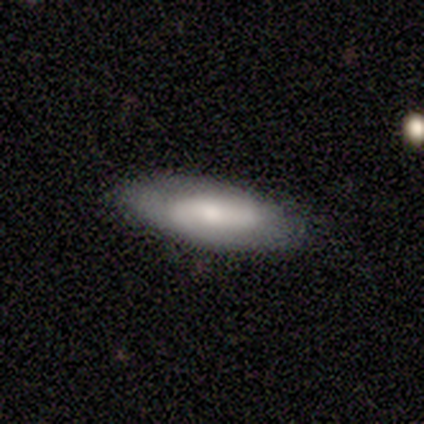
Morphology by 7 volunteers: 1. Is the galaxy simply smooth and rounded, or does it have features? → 71% featured or disk, 29% smooth, 0% star or artifact.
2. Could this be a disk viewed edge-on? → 60% no, 40% yes.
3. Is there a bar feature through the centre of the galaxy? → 67% no, 33% weak, 0% strong.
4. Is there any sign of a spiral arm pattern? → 67% yes, 33% no.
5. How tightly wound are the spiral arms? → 50% medium (tied), 50% loose (tied), 0% tight.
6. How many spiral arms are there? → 100% 2, 0% 1, 0% 3, 0% 4, 0% more than 4, 0% can't tell.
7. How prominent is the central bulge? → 100% small, 0% dominant, 0% large, 0% moderate, 0% none.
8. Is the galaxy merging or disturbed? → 100% none, 0% minor disturbance, 0% major disturbance, 0% merger.